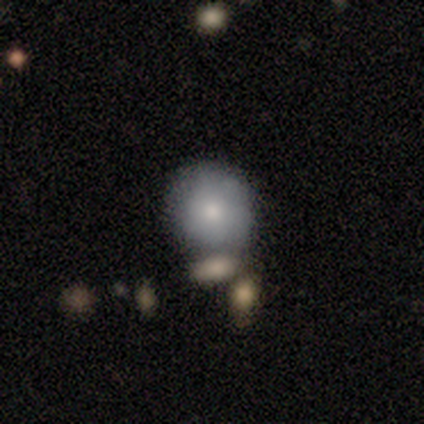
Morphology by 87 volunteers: smooth_or_featured: smooth (p=0.74) [alt: featured or disk p=0.23]
how_rounded: round (p=0.94) [alt: in between p=0.06]
merging: none (p=0.76) [alt: merger p=0.12]